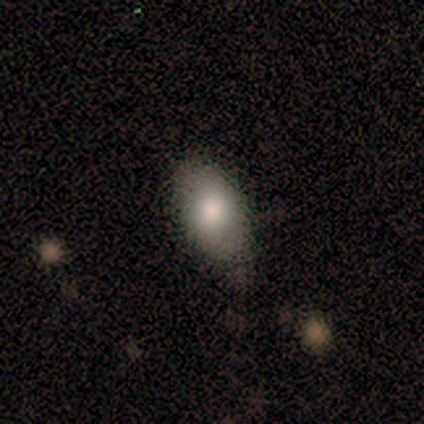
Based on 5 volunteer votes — Volunteers were most divided on "merging": minor disturbance: 60%, none: 40%, major disturbance: 0%, merger: 0%. More confident: how rounded — in between (100%); smooth or featured — smooth (80%).